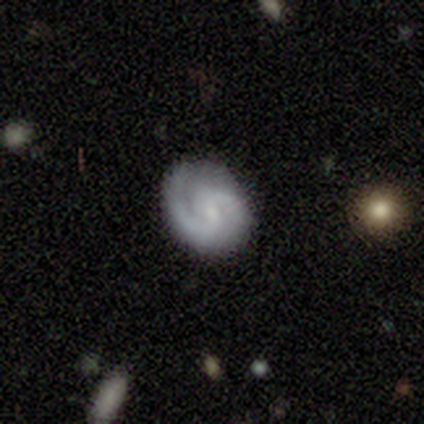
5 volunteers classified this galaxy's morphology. Overall: featured or disk (60%; smooth 20%). Edge-on disk: no (100%). Bar: no (100%). Spiral arms: yes (100%). Spiral arm count: 2 (100%). Spiral winding: tight (67%; medium 33%). Bulge size: moderate (33%, tied with small and none). Merging: none (100%).